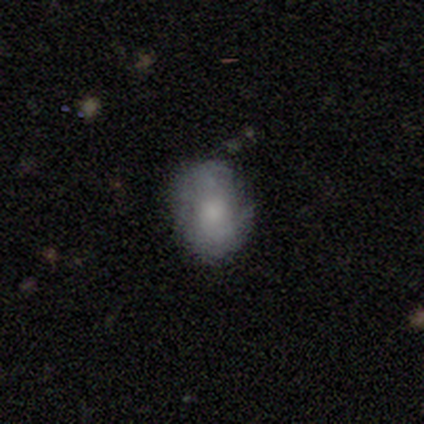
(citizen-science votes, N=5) smooth-or-featured: smooth: 40% (tied) | featured or disk: 40% (tied) | star or artifact: 20%
  how-rounded: round: 50% (tied) | in between: 50% (tied) | cigar-shaped: 0%
  merging: major disturbance: 50% | none: 25% | minor disturbance: 25% | merger: 0%